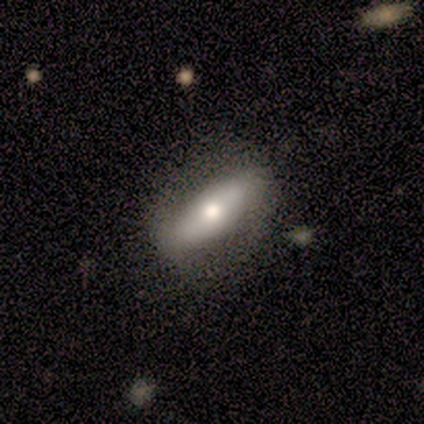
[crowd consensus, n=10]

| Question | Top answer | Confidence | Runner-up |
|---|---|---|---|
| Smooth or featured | smooth | 50% | featured or disk (40%) |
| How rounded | in between | 100% | — |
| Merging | none | 89% | merger (11%) |